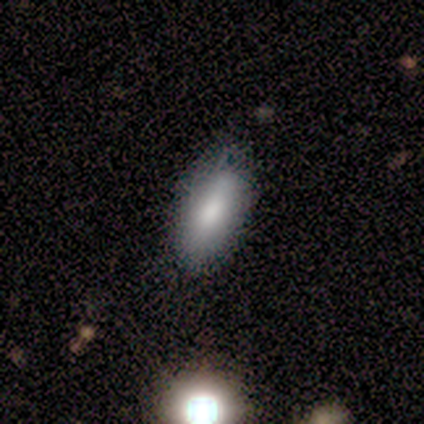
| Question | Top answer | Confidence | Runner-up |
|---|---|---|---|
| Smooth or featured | smooth | 80% | featured or disk (20%) |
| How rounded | in between | 100% | — |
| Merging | none | 80% | minor disturbance (20%) |